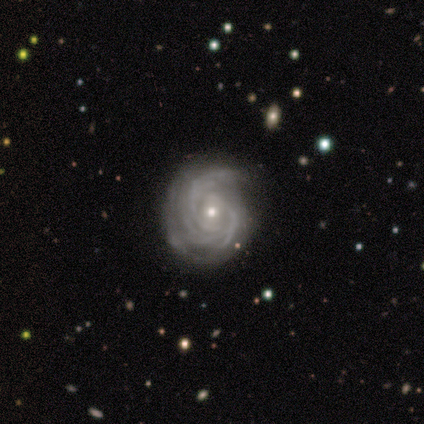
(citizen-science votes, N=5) Morphology: type=featured or disk (100%); edge-on=no (100%); bar=no (100%); spiral arms=yes (100%); winding=tight (40%, tied with loose); arm count=3 (40%, tied with can't tell); bulge=small (80%); merging=none (60%).